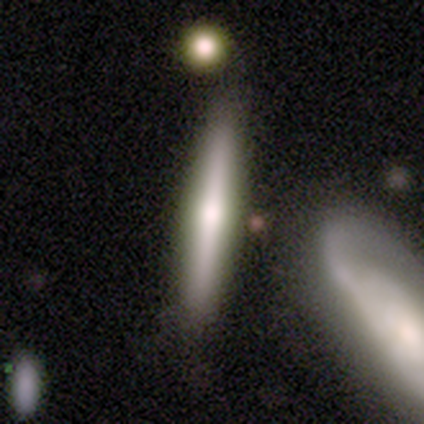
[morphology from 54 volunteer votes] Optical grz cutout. It shows a featured or disk galaxy (54%) viewed edge-on (97%) with a rounded central bulge (96%). Merging: none (69%).